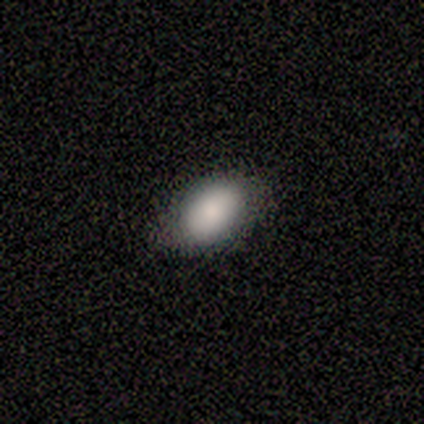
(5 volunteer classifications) smooth_or_featured: smooth (p=1.00)
how_rounded: in between (p=1.00)
merging: none (p=1.00)